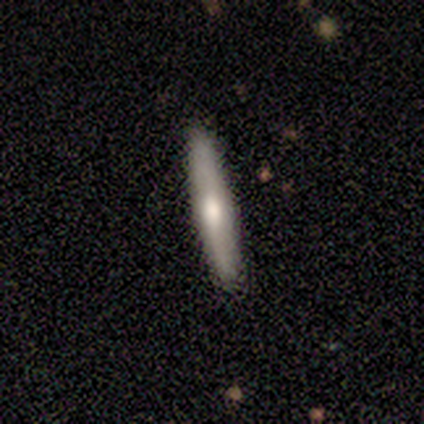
A smooth galaxy with no disk features (75%) that is cigar-shaped (100%). Merging: none (75%).